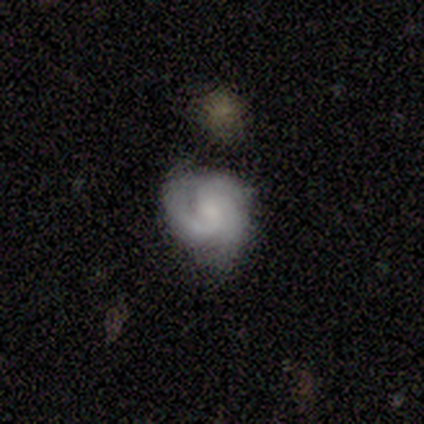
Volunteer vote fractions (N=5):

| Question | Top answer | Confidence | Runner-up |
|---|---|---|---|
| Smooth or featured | featured or disk | 80% | smooth (20%) |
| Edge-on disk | no | 100% | — |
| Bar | weak | 50% | tied: no (50%) |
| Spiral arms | yes | 100% | — |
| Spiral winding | medium | 75% | loose (25%) |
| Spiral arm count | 3 | 75% | 2 (25%) |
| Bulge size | small | 50% | moderate (25%) |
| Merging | none | 60% | minor disturbance (40%) |